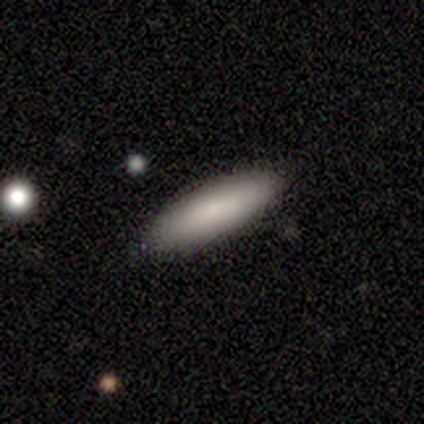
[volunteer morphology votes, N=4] smooth 100%, featured or disk 0%, star or artifact 0%. Down the decision tree: how rounded — cigar-shaped (100%); merging — none (100%).